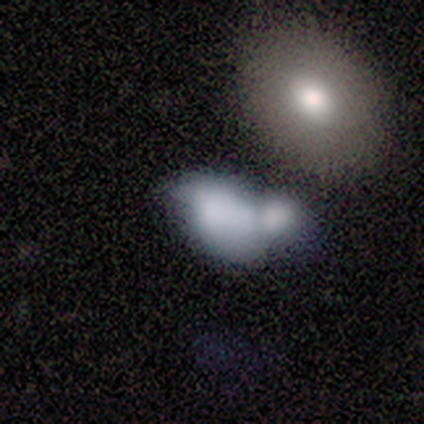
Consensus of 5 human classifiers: smooth_or_featured: smooth (p=0.40) [tied with: featured or disk p=0.40]
how_rounded: in between (p=1.00)
merging: minor disturbance (p=0.50) [alt: none p=0.25]